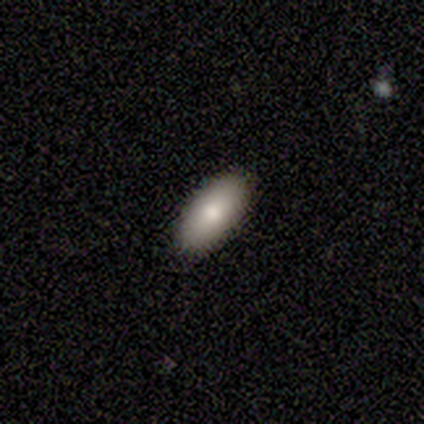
smooth 75%, featured or disk 25%, star or artifact 0%. Down the decision tree: how rounded — in between (67%); merging — none (100%).